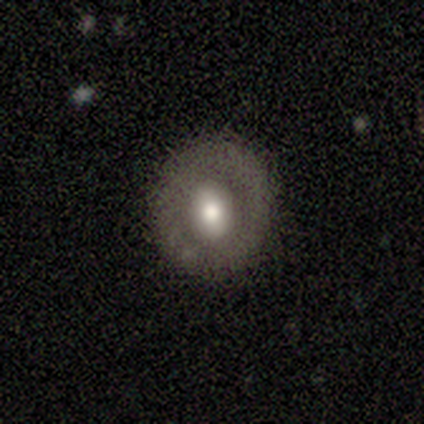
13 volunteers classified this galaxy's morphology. Smooth or featured? smooth (77%)
How rounded? round (60%)
Merging? none (83%)